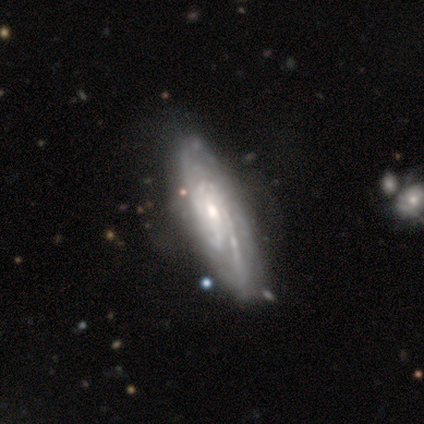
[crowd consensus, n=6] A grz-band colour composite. It shows a featured or disk galaxy (83%) with a weak bar (80%), medium (60%) spiral arms (100%) and a moderate central bulge (60%). Merging: none (100%).